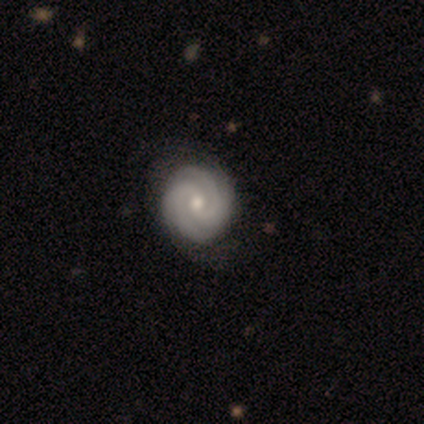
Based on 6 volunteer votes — Smooth or featured? 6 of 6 (100%) said featured or disk. Edge-on disk? 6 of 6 (100%) said no. Bar? 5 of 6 (83%) said no. Spiral arms? 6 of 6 (100%) said yes. Spiral winding? 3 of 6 (50%, tied with medium) said tight. Spiral arm count? 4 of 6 (67%) said 2. Bulge size? 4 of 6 (67%) said moderate. Merging? 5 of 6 (83%) said none.